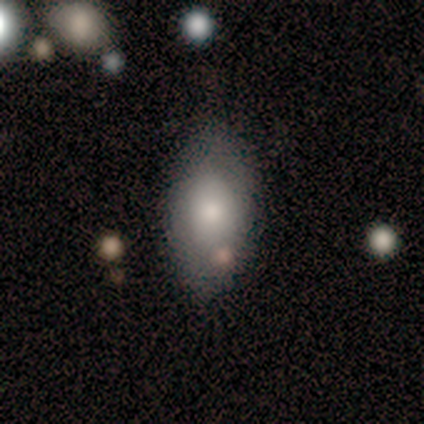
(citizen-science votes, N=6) Smooth or featured?
  - smooth: 100% *
  - featured or disk: 0%
  - star or artifact: 0%
How rounded?
  - in between: 100% *
  - round: 0%
  - cigar-shaped: 0%
Merging?
  - none: 67% *
  - minor disturbance: 17%
  - merger: 17%
  - major disturbance: 0%